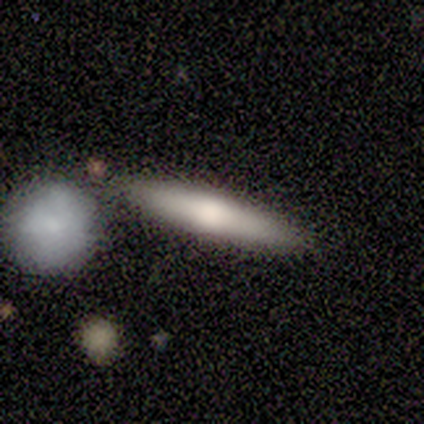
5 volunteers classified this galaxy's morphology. smooth-or-featured: smooth: 80% | star or artifact: 20% | featured or disk: 0%
  how-rounded: cigar-shaped: 100% | round: 0% | in between: 0%
  merging: none: 75% | minor disturbance: 25% | major disturbance: 0% | merger: 0%